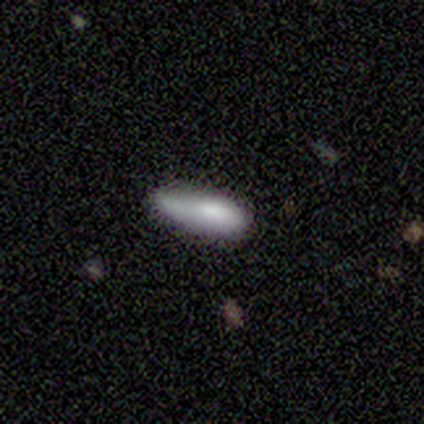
Morphology: type=smooth (80%); roundness=in between (75%); merging=major disturbance (60%).